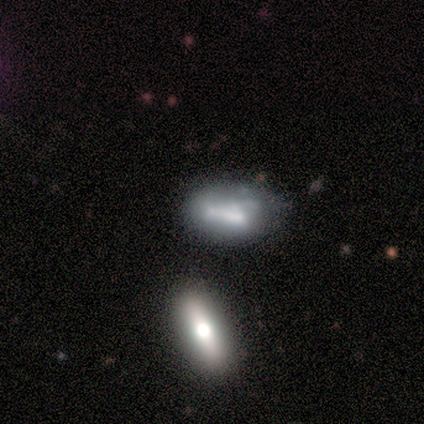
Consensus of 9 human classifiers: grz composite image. It shows a featured or disk galaxy (56%) with no bar (80%), no spiral arms (80%) and a moderate central bulge (60%). Merging: major disturbance (43%).